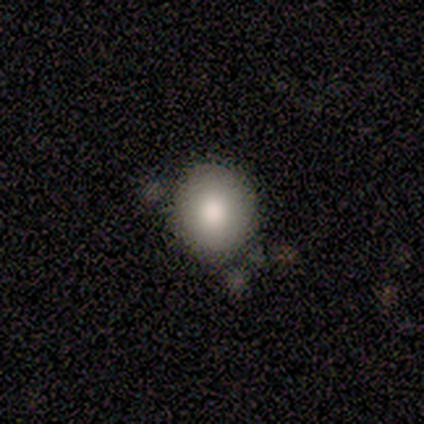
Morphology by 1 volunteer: Consensus on every question: smooth or featured — smooth (100%); how rounded — in between (100%); merging — minor disturbance (100%).